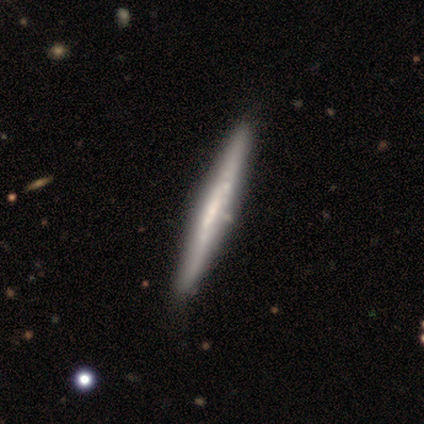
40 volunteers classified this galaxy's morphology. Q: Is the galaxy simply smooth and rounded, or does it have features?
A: featured or disk — 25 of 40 (62%).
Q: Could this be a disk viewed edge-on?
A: yes — 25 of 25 (100%).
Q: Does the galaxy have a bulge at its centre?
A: none — 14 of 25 (56%).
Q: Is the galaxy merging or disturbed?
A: none — 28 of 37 (76%).